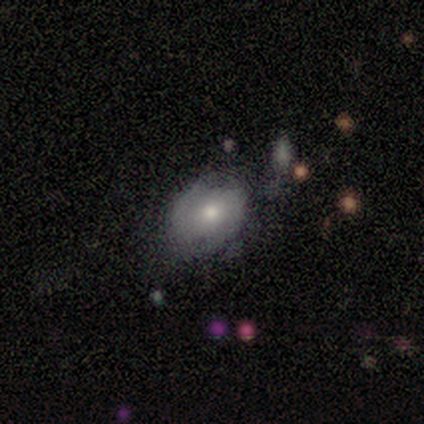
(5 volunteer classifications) featured or disk 80%, smooth 20%, star or artifact 0%. Down the decision tree: edge-on disk — no (100%); bar — weak (75%); spiral arms — yes (100%); spiral arm count — 2 (75%); spiral winding — medium (50%, tied with loose); bulge size — moderate (50%); merging — none (80%).